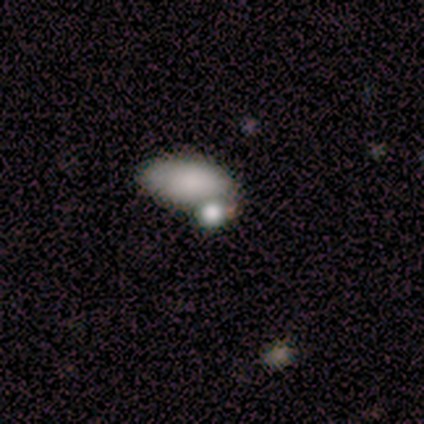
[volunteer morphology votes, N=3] Overall: smooth (100%). How rounded: in between (67%; round 33%). Merging: none (67%; merger 33%).